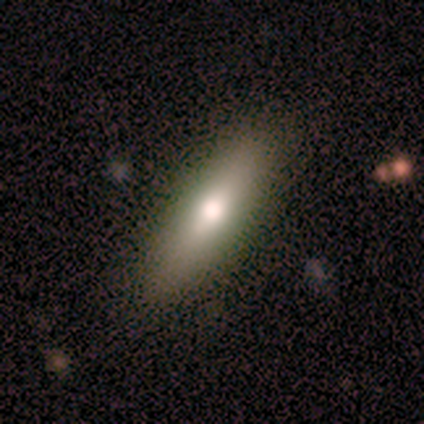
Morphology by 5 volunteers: Smooth or featured?
  - smooth: 40% * (tied)
  - featured or disk: 40% * (tied)
  - star or artifact: 20%
How rounded?
  - in between: 50% * (tied)
  - cigar-shaped: 50% * (tied)
  - round: 0%
Merging?
  - none: 100% *
  - minor disturbance: 0%
  - major disturbance: 0%
  - merger: 0%